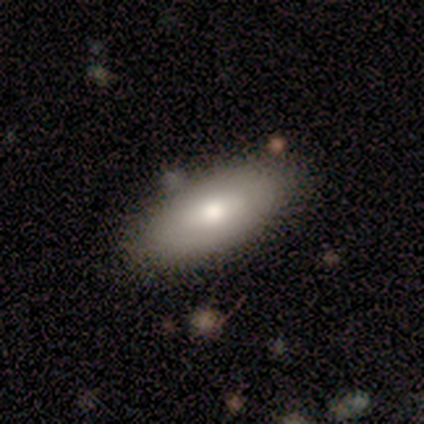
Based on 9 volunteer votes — A featured or disk galaxy (67%) with no bar (80%), no spiral arms (100%) and a moderate central bulge (40%, tied with small). Merging: none (89%).